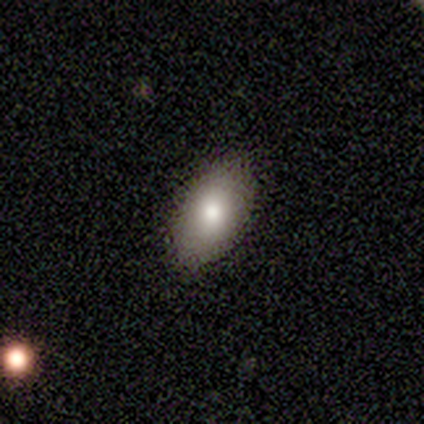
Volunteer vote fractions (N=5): Overall: featured or disk (40%, tied with star or artifact). Edge-on disk: no (100%). Bar: no (100%). Spiral arms: no (100%). Bulge size: moderate (50%, tied with small). Merging: none (100%).